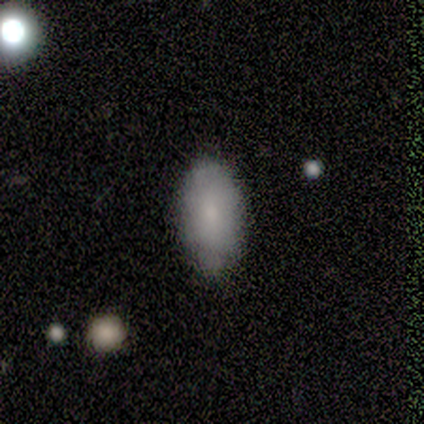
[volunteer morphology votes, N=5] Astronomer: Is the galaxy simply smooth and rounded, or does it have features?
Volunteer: smooth — 80%.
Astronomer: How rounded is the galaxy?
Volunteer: in between — 100%.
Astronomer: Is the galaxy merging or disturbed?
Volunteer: none — 80%.